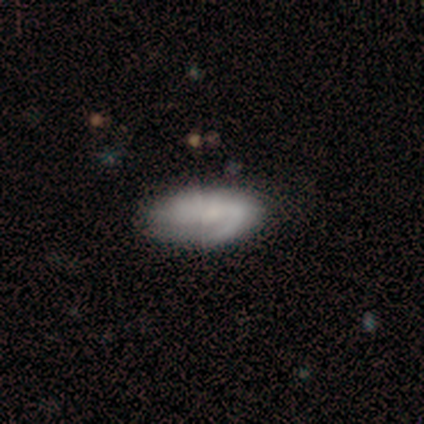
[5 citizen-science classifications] A smooth galaxy with no disk features (60%) that is in between round and cigar-shaped (100%). Merging: minor disturbance (60%).